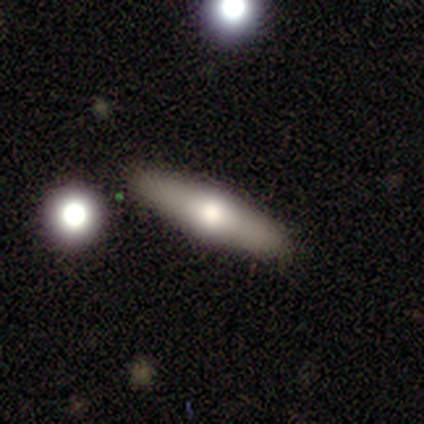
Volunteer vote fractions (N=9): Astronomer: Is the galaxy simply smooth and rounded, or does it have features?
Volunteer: smooth — 44%, tied with featured or disk at 44%.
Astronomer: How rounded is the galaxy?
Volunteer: in between — 75%.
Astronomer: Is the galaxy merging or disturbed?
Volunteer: none — 100%.